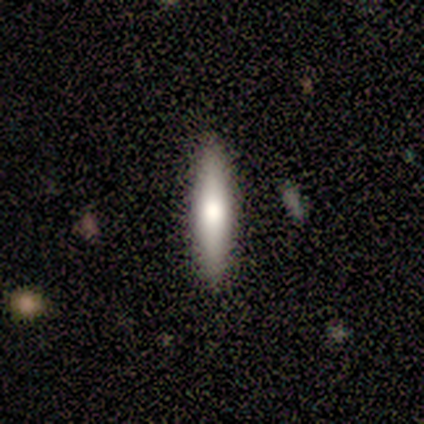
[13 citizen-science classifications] smooth 92%, featured or disk 8%, star or artifact 0%. Down the decision tree: how rounded — cigar-shaped (100%); merging — none (85%).